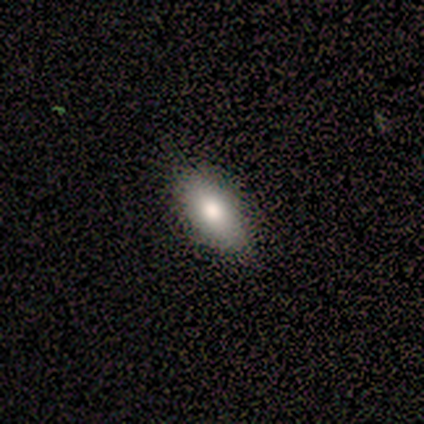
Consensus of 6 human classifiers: Q: Smooth or featured?
A: smooth (83%); runner-up: featured or disk (17%)
Q: How rounded?
A: in between (100%)
Q: Merging?
A: none (67%); runner-up: minor disturbance (33%)